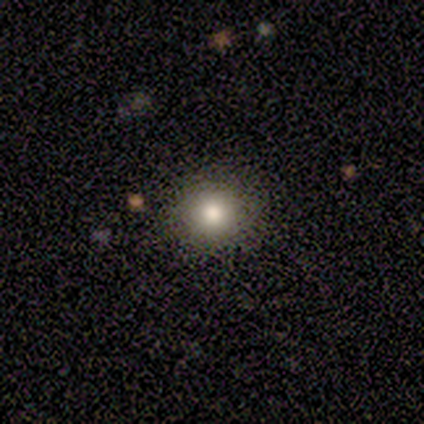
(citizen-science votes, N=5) Overall: smooth (100%). How rounded: round (100%). Merging: none (80%).